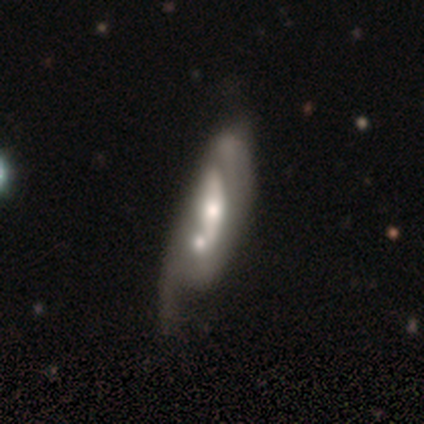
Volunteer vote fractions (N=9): A featured or disk galaxy (100%) with no bar (71%), no spiral arms (57%) and a moderate central bulge (71%). Merging: merger (67%).